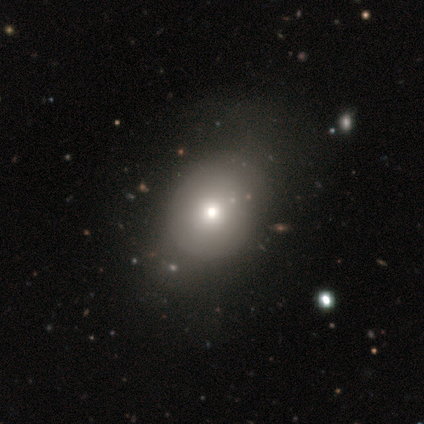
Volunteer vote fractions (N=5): Smooth or featured? smooth (60%)
How rounded? in between (67%)
Merging? none (50%, tied with major disturbance)